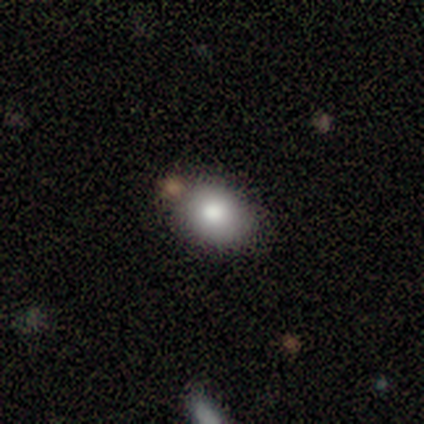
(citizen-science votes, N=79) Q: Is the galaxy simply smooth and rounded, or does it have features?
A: smooth — 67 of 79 (85%).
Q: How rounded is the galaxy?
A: in between — 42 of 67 (63%).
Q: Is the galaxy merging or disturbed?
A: none — 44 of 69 (64%).